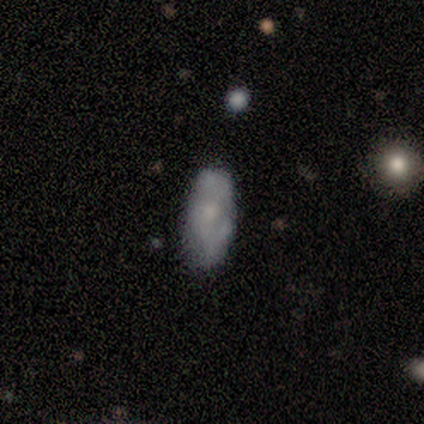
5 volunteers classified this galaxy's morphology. Smooth or featured? smooth (60%)
How rounded? in between (100%)
Merging? none (80%)